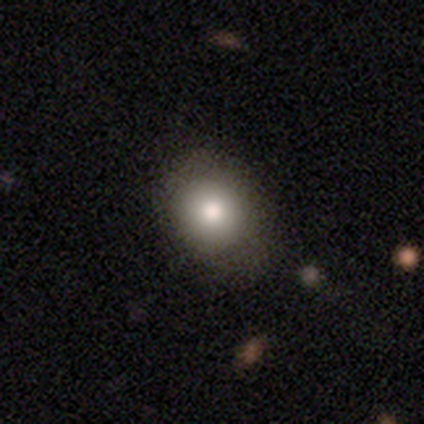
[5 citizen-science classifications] This appears to be a smooth galaxy with no disk features (80%) that is round (75%). Merging: none (100%).